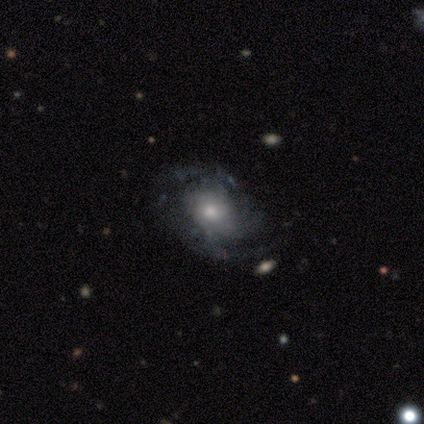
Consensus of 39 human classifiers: smooth_or_featured: featured or disk (p=0.92) [alt: smooth p=0.08]
disk_edge_on: no (p=1.00)
bar: no (p=0.75) [alt: weak p=0.22]
has_spiral_arms: yes (p=0.81) [alt: no p=0.19]
spiral_winding: tight (p=0.48) [alt: medium p=0.28]
spiral_arm_count: 2 (p=0.48) [alt: can't tell p=0.38]
bulge_size: moderate (p=0.47) [alt: small p=0.44]
merging: none (p=0.67) [alt: minor disturbance p=0.26]